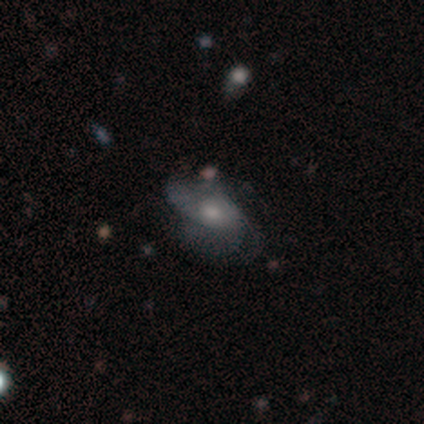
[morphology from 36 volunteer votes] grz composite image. It shows a featured or disk galaxy (69%) with no bar (79%), 2 (65%) loose (47%) spiral arms (71%) and a small central bulge (46%). Merging: none (50%).